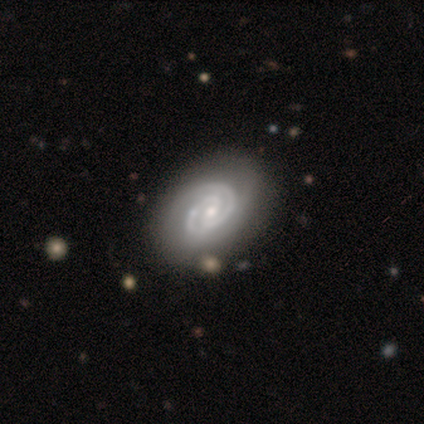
A featured or disk galaxy (89%) with a weak bar (50%), 2 (100%) tight (62%) spiral arms (100%) and a moderate central bulge (62%).

Vote fractions:
- Smooth or featured? featured or disk: 89% / smooth: 6% / star or artifact: 6%
- Edge-on disk? no: 100% / yes: 0%
- Bar? weak: 50% / strong: 25% / no: 25%
- Spiral arms? yes: 100% / no: 0%
- Spiral winding? tight: 62% / medium: 38% / loose: 0%
- Spiral arm count? 2: 100% / 1: 0% / 3: 0% / 4: 0% / more than 4: 0% / can't tell: 0%
- Bulge size? moderate: 62% / small: 38% / dominant: 0% / large: 0% / none: 0%
- Merging? none: 94% / minor disturbance: 6% / major disturbance: 0% / merger: 0%